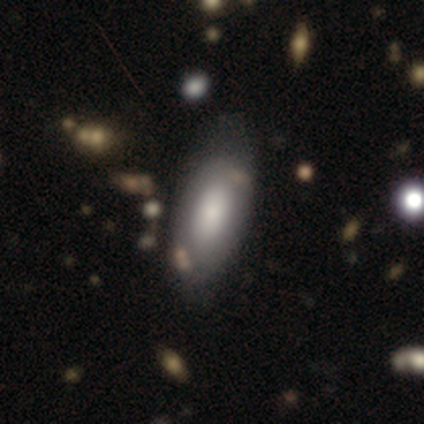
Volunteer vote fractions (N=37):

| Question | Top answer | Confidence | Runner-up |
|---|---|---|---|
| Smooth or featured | smooth | 78% | featured or disk (19%) |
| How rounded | in between | 86% | cigar-shaped (14%) |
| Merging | none | 56% | minor disturbance (28%) |